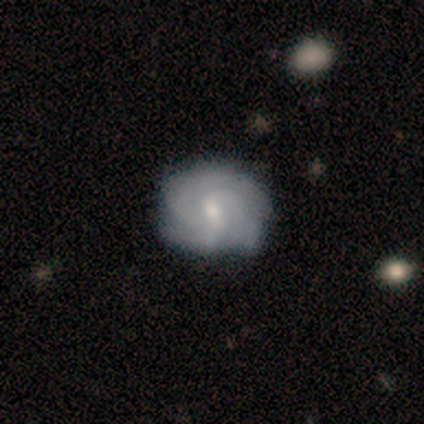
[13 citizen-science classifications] Morphology: type=featured or disk (62%); edge-on=no (100%); bar=weak (75%); spiral arms=yes (100%); winding=tight (88%); arm count=3 (50%); bulge=small (75%); merging=none (77%).